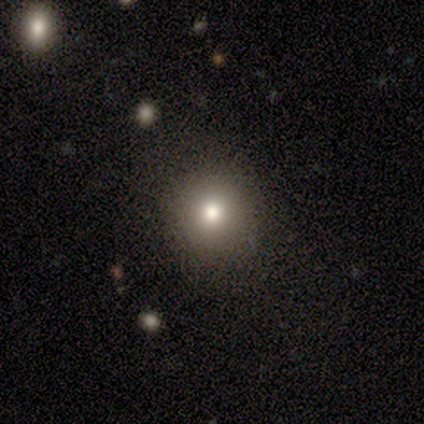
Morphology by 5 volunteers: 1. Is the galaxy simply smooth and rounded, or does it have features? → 100% smooth, 0% featured or disk, 0% star or artifact.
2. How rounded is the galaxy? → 100% round, 0% in between, 0% cigar-shaped.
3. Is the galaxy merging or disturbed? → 100% none, 0% minor disturbance, 0% major disturbance, 0% merger.